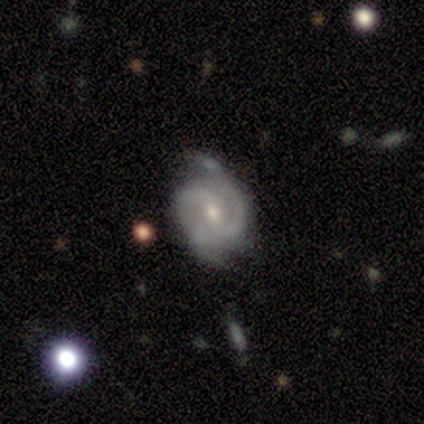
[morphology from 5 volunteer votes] A featured or disk galaxy (80%) with no bar (67%), 2 (67%) medium (67%) spiral arms (100%) and a moderate central bulge (67%). Merging: none (100%).